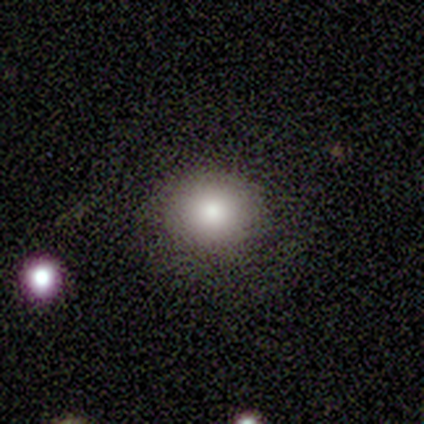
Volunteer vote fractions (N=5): Q: Smooth or featured?
A: smooth (100%)
Q: How rounded?
A: round (80%); runner-up: in between (20%)
Q: Merging?
A: none (100%)